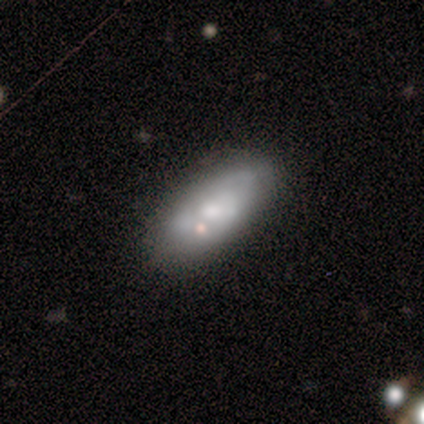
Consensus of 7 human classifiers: Smooth or featured?
  - smooth: 86% *
  - featured or disk: 14%
  - star or artifact: 0%
How rounded?
  - in between: 67% *
  - cigar-shaped: 33%
  - round: 0%
Merging?
  - none: 71% *
  - minor disturbance: 14%
  - major disturbance: 14%
  - merger: 0%